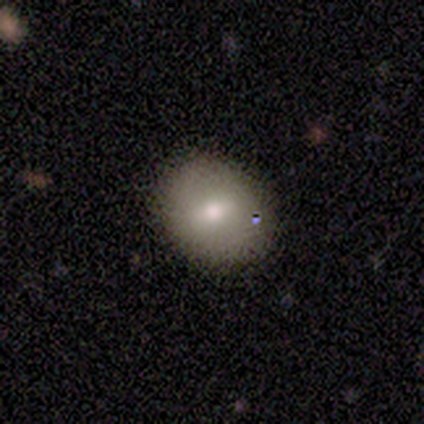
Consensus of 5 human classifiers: Overall: smooth (60%; featured or disk 20%). How rounded: round (67%; in between 33%). Merging: none (100%).